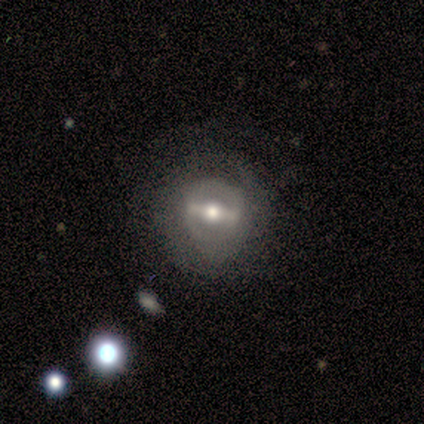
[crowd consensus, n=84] Q: Smooth or featured?
A: featured or disk (83%); runner-up: smooth (10%)
Q: Edge-on disk?
A: no (90%); runner-up: yes (10%)
Q: Bar?
A: strong (76%); runner-up: weak (17%)
Q: Spiral arms?
A: no (56%); runner-up: yes (44%)
Q: Bulge size?
A: moderate (73%); runner-up: large (19%)
Q: Merging?
A: none (68%); runner-up: minor disturbance (19%)